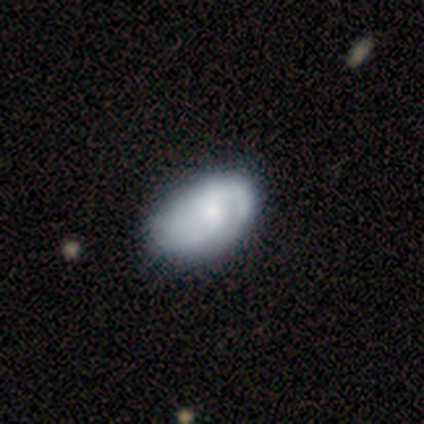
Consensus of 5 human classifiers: Volunteers were most divided on "merging": none: 60%, minor disturbance: 20%, major disturbance: 20%, merger: 0%. More confident: how rounded — in between (100%); smooth or featured — smooth (80%).